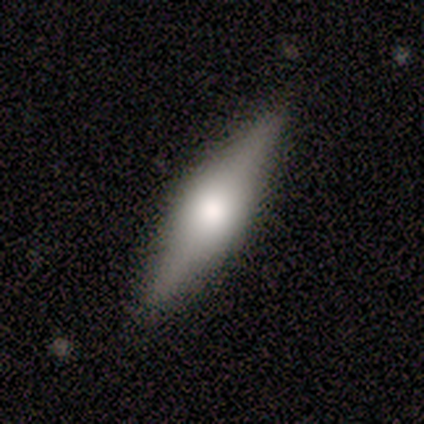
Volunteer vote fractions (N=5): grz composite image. It shows a featured or disk galaxy (60%) viewed edge-on (100%) with a rounded central bulge (100%). Merging: none (75%).